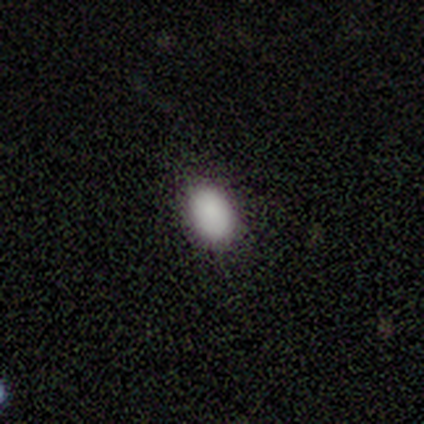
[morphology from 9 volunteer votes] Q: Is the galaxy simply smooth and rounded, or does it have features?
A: smooth — 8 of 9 (89%).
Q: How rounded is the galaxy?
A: in between — 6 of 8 (75%).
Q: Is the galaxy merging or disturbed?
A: none — 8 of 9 (89%).